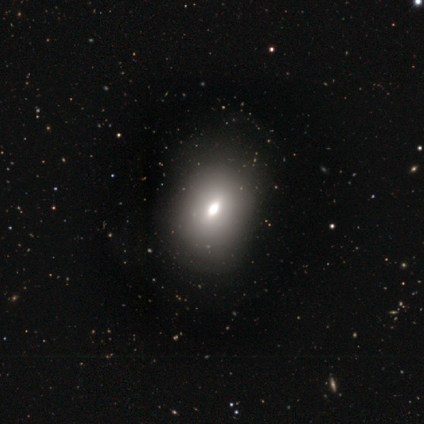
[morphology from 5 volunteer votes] This is marginally a smooth galaxy (40%, tied with featured or disk). How rounded: possibly round (50%, tied with in between). Merging: clearly none (100%).